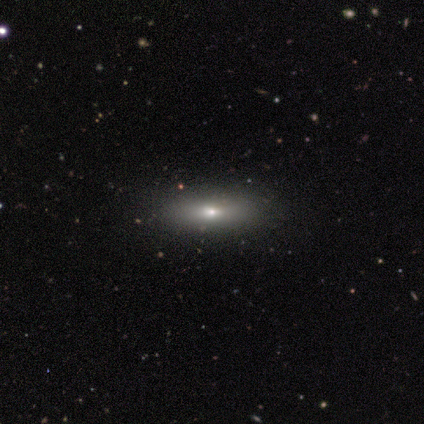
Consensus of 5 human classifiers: Overall: smooth (80%). How rounded: in between (50%, tied with cigar-shaped). Merging: none (100%).